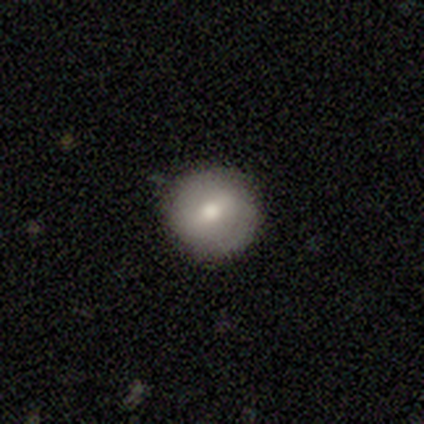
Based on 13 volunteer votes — smooth_or_featured: smooth (p=0.69) [alt: featured or disk p=0.15]
how_rounded: round (p=0.89) [alt: in between p=0.11]
merging: none (p=0.73) [alt: minor disturbance p=0.18]